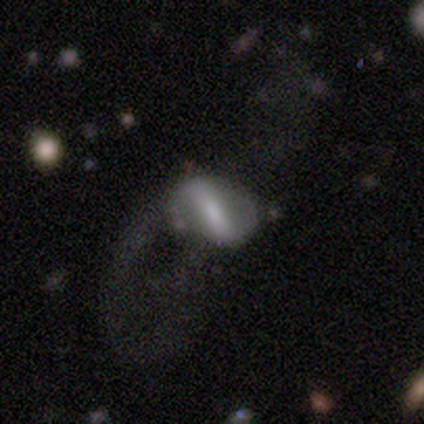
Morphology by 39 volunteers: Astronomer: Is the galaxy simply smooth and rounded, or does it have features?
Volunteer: featured or disk — 64%.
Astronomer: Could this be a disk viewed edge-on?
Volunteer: no — 84%.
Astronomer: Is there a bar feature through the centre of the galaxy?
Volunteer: strong — 57%.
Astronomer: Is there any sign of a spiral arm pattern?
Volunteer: no — 52% (runner-up: yes, 48%).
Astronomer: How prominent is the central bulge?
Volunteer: none — 62%.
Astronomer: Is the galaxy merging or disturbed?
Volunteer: major disturbance — 57%.